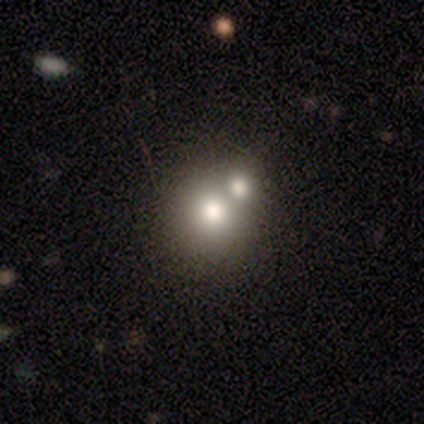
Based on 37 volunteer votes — Smooth or featured?
  - smooth: 76% *
  - featured or disk: 16%
  - star or artifact: 8%
How rounded?
  - round: 86% *
  - in between: 14%
  - cigar-shaped: 0%
Merging?
  - merger: 65% *
  - none: 26%
  - minor disturbance: 9%
  - major disturbance: 0%